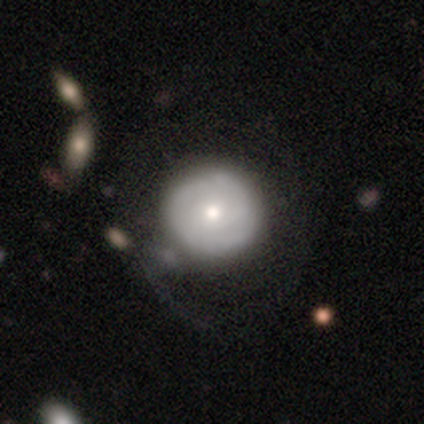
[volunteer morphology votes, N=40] Q: Smooth or featured?
A: featured or disk (50%); runner-up: smooth (48%)
Q: Edge-on disk?
A: no (100%)
Q: Bar?
A: no (100%)
Q: Spiral arms?
A: yes (65%); runner-up: no (35%)
Q: Spiral winding?
A: tight (69%); runner-up: medium (15%)
Q: Spiral arm count?
A: can't tell (54%); runner-up: 1 (15%)
Q: Bulge size?
A: moderate (65%); runner-up: small (25%)
Q: Merging?
A: none (38%); runner-up: minor disturbance (18%)